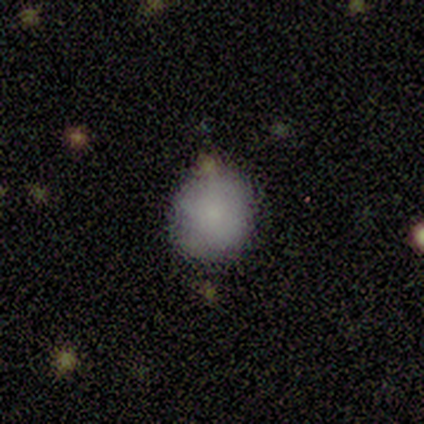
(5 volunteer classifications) Smooth or featured? 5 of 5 (100%) said smooth. How rounded? 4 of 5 (80%) said round. Merging? 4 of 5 (80%) said none.